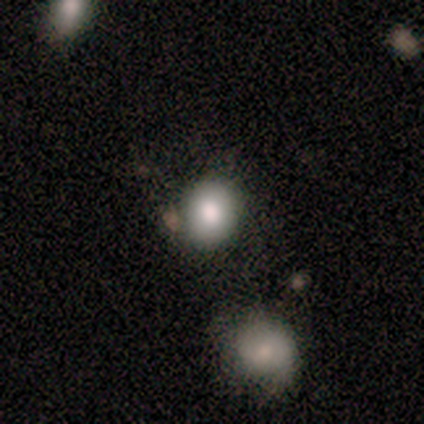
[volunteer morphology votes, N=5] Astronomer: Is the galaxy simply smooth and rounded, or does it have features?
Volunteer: smooth — 80%.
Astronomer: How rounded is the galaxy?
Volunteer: round — 75%.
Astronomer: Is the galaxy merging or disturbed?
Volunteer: none — 75%.